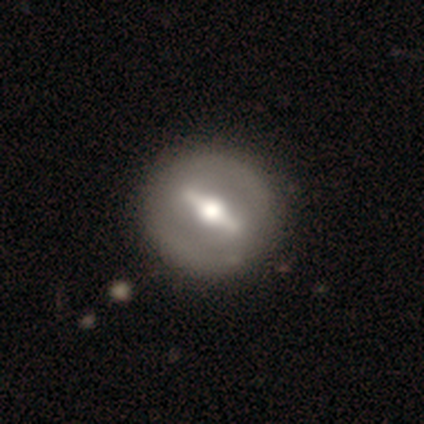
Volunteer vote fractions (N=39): Smooth or featured? 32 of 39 (82%) said featured or disk. Edge-on disk? 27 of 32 (84%) said no. Bar? 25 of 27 (93%) said strong. Spiral arms? 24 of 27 (89%) said no. Bulge size? 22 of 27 (81%) said moderate. Merging? 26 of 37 (70%) said none.